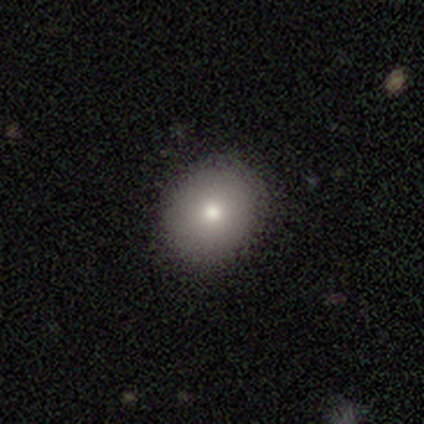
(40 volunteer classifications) Morphology: type=smooth (88%); roundness=round (77%); merging=none (82%).